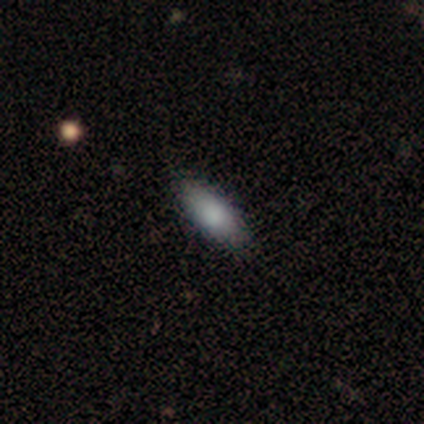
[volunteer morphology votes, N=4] Smooth or featured? smooth (75%)
How rounded? in between (67%)
Merging? none (75%)